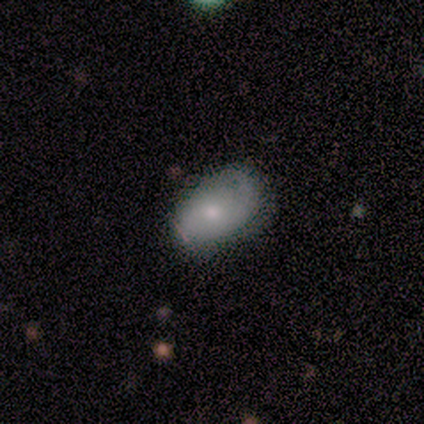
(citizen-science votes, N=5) Overall: featured or disk (60%; smooth 40%). Edge-on disk: no (100%). Bar: no (67%; weak 33%). Spiral arms: no (67%; yes 33%). Bulge size: moderate (67%; small 33%). Merging: minor disturbance (60%; major disturbance 40%).